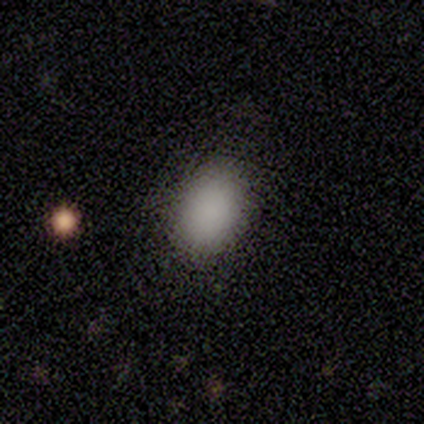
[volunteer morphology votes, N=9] This appears to be a smooth galaxy with no disk features (78%) that is in between round and cigar-shaped (100%). Merging: none (88%).